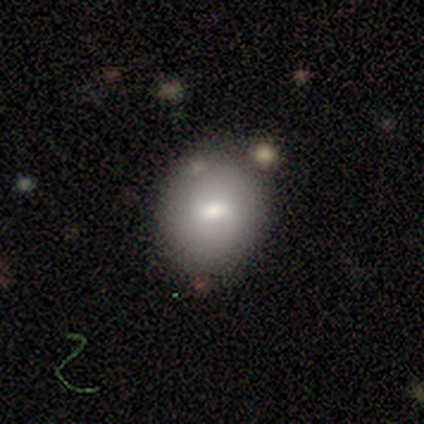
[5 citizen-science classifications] A smooth galaxy with no disk features (60%) that is in between round and cigar-shaped (67%). Merging: none (75%).